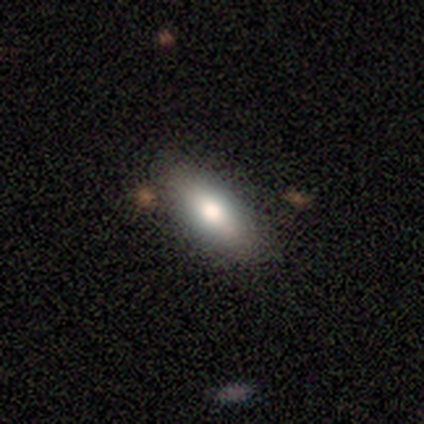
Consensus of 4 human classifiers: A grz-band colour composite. It shows a smooth galaxy with no disk features (100%) that is in between round and cigar-shaped (100%). Merging: none (100%).